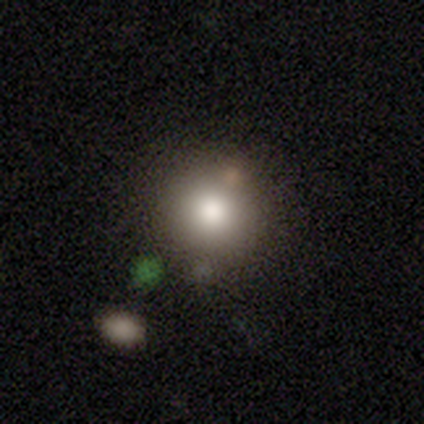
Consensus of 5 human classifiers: Smooth or featured?
  - smooth: 60% *
  - featured or disk: 40%
  - star or artifact: 0%
How rounded?
  - round: 100% *
  - in between: 0%
  - cigar-shaped: 0%
Merging?
  - none: 80% *
  - major disturbance: 20%
  - minor disturbance: 0%
  - merger: 0%